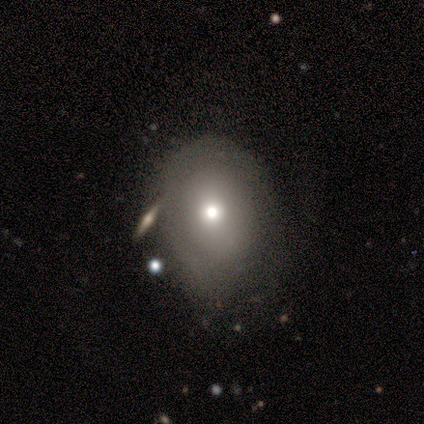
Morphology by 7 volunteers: Smooth or featured?
  - smooth: 71% *
  - featured or disk: 29%
  - star or artifact: 0%
How rounded?
  - in between: 80% *
  - round: 20%
  - cigar-shaped: 0%
Merging?
  - minor disturbance: 43% *
  - none: 29%
  - major disturbance: 29%
  - merger: 0%